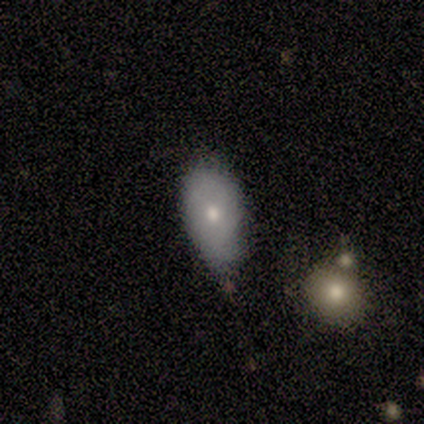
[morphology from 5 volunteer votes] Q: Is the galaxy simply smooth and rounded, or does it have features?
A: smooth — 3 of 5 (60%).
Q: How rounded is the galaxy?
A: in between — 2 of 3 (67%).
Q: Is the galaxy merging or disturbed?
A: minor disturbance — 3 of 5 (60%).